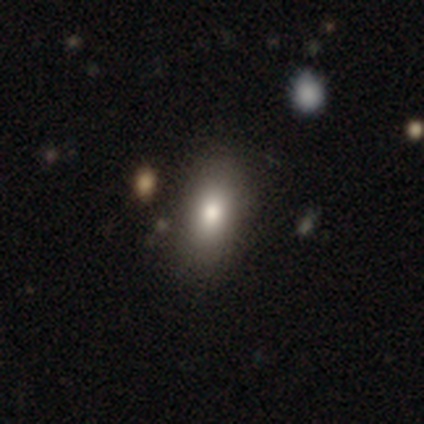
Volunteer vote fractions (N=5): smooth 100%, featured or disk 0%, star or artifact 0%. Down the decision tree: how rounded — in between (80%); merging — none (60%).